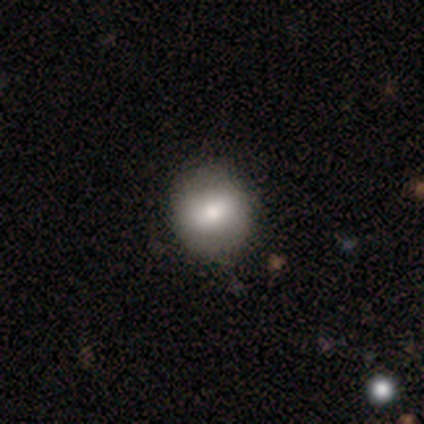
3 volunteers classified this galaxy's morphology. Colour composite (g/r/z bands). It shows a featured or disk galaxy (67%) with a strong bar (50%, tied with no), no spiral arms (100%) and a large central bulge (100%). Merging: none (67%).